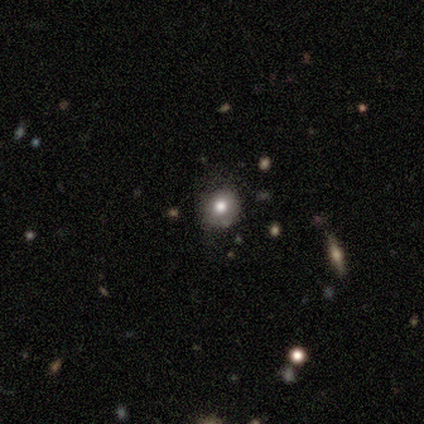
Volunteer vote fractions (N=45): Smooth or featured? 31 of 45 (69%) said smooth. How rounded? 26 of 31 (84%) said round. Merging? 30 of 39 (77%) said none.